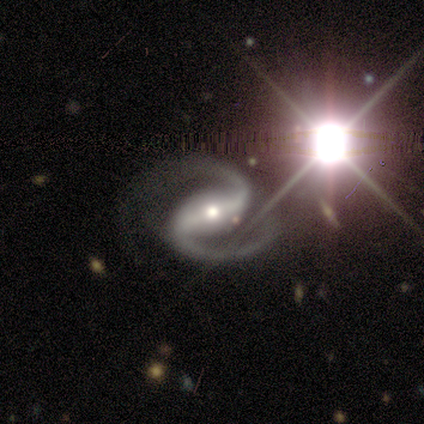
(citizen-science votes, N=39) This appears to be a featured or disk galaxy (100%) with a strong bar (74%), 2 (95%) medium (51%) spiral arms (97%) and a moderate central bulge (58%). Merging: none (72%).